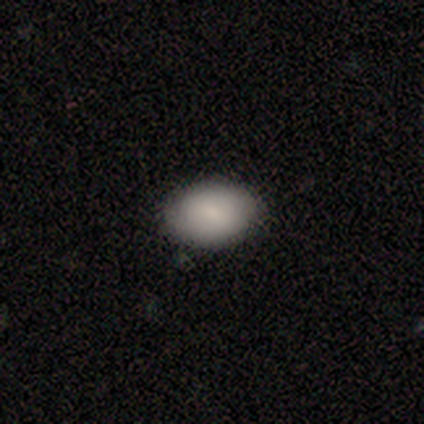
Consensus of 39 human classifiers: Smooth or featured? smooth (72%)
How rounded? in between (82%)
Merging? none (85%)